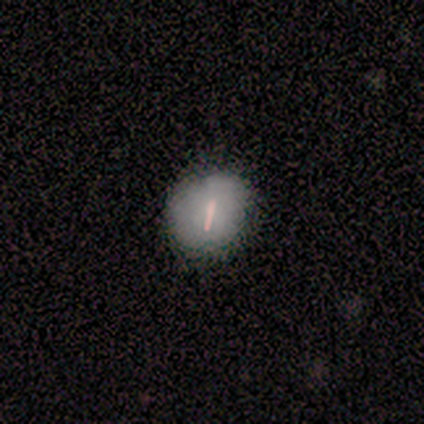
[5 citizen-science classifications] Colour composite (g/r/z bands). It shows a smooth galaxy with no disk features (60%) that is round (100%). Merging: none (100%).